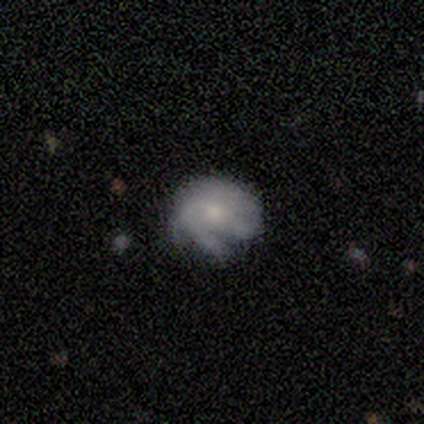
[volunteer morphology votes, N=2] Smooth or featured? 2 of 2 (100%) said smooth. How rounded? 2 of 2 (100%) said round. Merging? 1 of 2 (50%, tied with minor disturbance) said none.